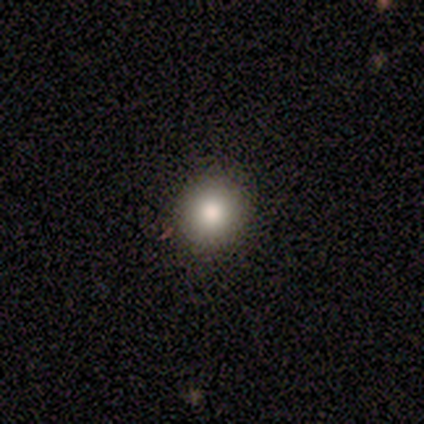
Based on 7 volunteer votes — Smooth or featured? 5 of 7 (71%) said smooth. How rounded? 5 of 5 (100%) said round. Merging? 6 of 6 (100%) said none.